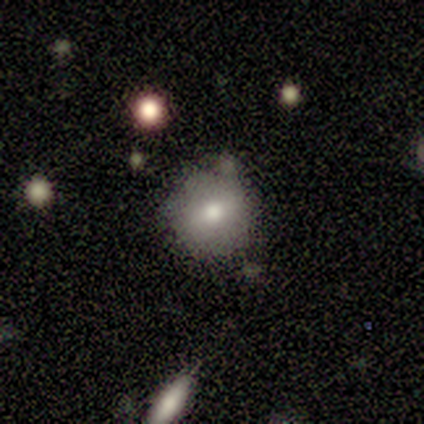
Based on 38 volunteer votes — A smooth galaxy with no disk features (76%) that is round (90%).

Vote fractions:
- Smooth or featured? smooth: 76% / featured or disk: 16% / star or artifact: 8%
- How rounded? round: 90% / in between: 10% / cigar-shaped: 0%
- Merging? none: 63% / minor disturbance: 29% / major disturbance: 9% / merger: 0%